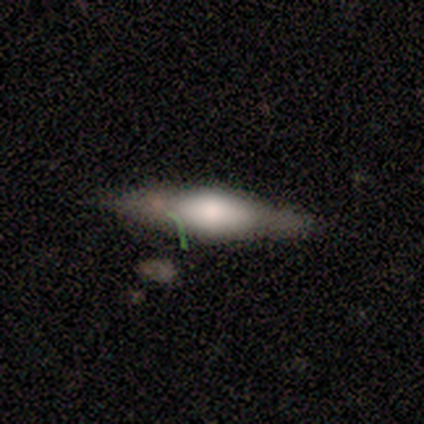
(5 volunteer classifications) This is likely a featured or disk galaxy (60%). It is clearly viewed edge-on (100%). Edge-on bulge: likely rounded (67%). Merging: clearly none (100%).